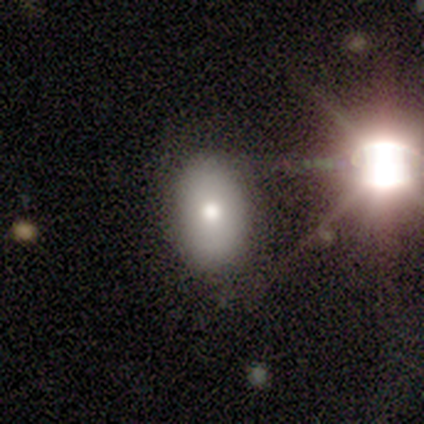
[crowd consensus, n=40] A smooth galaxy with no disk features (52%) that is in between round and cigar-shaped (76%). Merging: none (90%).